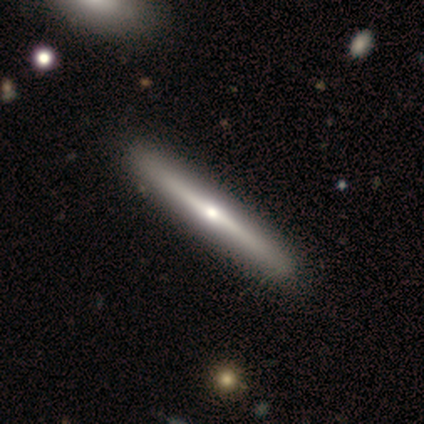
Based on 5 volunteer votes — Morphology: type=featured or disk (60%); edge-on=yes (100%); edge-on bulge=rounded (67%); merging=none (80%).